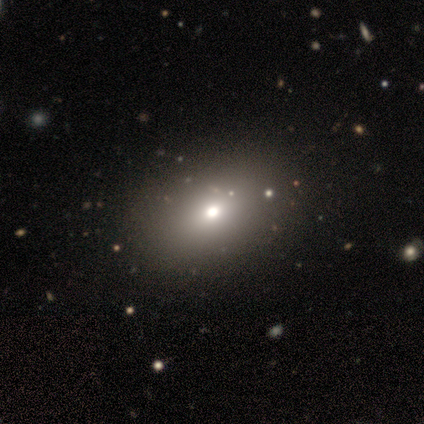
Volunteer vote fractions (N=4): Overall: smooth (75%). How rounded: round (100%). Merging: none (100%).